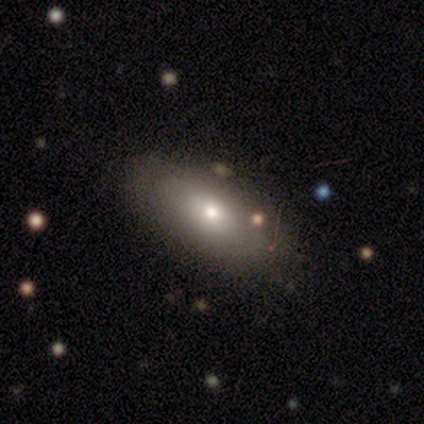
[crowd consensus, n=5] Smooth or featured: smooth — 80% (featured or disk — 20%)
How rounded: in between — 50% (tied with cigar-shaped — 50%)
Merging: none — 100%